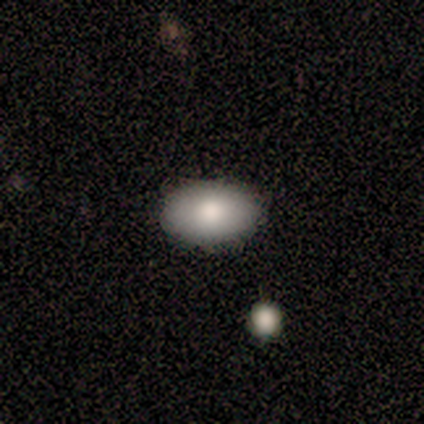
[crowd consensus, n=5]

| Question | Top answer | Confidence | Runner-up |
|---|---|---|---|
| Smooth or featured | smooth | 100% | — |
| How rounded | in between | 100% | — |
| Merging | none | 100% | — |